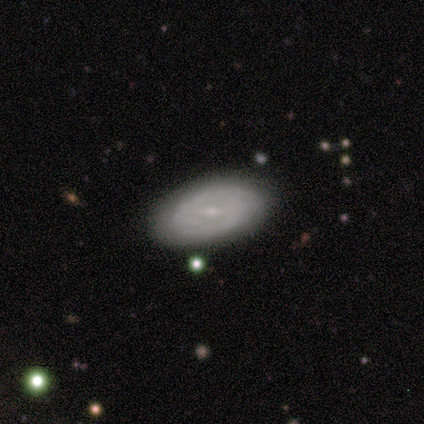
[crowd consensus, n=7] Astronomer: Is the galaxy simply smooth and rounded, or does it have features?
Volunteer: featured or disk — 71%.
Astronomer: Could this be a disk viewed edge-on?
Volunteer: no — 100%.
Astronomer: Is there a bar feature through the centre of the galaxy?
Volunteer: strong — 60% (runner-up: weak, 40%).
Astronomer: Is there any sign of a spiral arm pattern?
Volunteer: yes — 80%.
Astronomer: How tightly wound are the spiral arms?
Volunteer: tight — 50%.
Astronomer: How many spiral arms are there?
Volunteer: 2 — 75%.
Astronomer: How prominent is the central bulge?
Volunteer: small — 80%.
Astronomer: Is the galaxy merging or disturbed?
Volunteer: none — 71%.